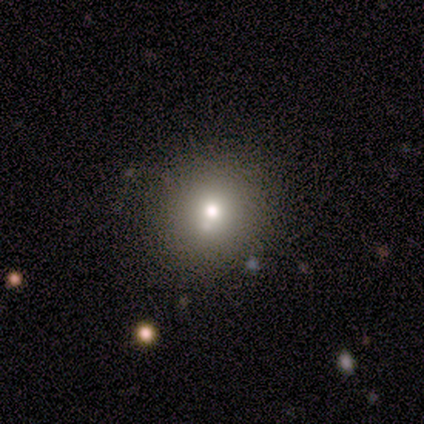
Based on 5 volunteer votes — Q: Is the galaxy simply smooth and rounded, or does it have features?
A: smooth — 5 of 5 (100%).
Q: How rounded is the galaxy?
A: round — 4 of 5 (80%).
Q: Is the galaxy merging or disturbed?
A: none — 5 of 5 (100%).